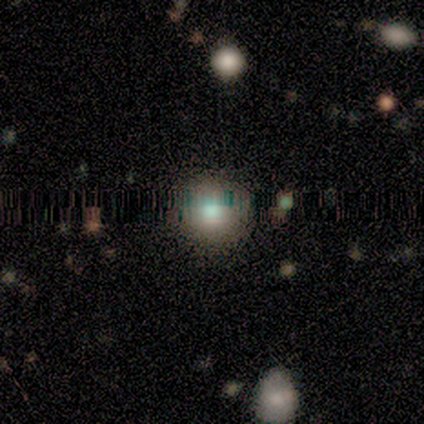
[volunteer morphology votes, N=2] Q: Smooth or featured?
A: smooth (50%); tied with: star or artifact (50%)
Q: How rounded?
A: round (100%)
Q: Merging?
A: none (100%)